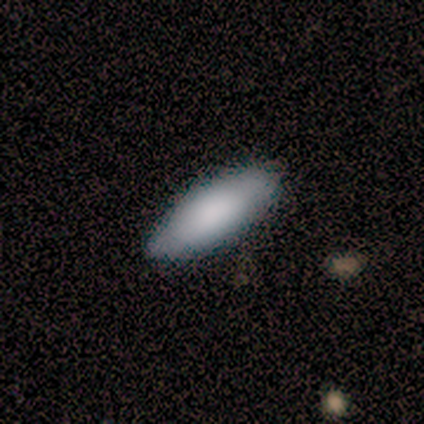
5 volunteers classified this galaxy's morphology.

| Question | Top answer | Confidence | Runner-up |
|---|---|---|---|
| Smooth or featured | smooth | 100% | — |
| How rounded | cigar-shaped | 60% | in between (40%) |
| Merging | none | 80% | major disturbance (20%) |